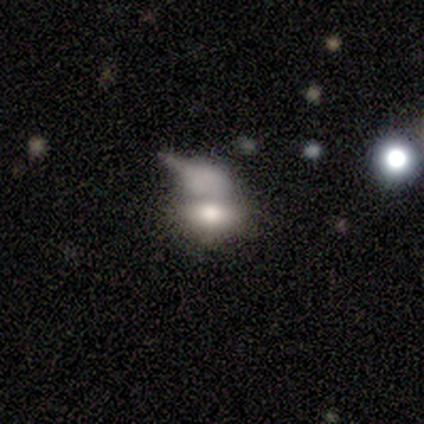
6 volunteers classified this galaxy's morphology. smooth-or-featured: smooth: 83% | featured or disk: 17% | star or artifact: 0%
  how-rounded: in between: 100% | round: 0% | cigar-shaped: 0%
  merging: none: 33% (tied) | major disturbance: 33% (tied) | merger: 33% (tied) | minor disturbance: 0%